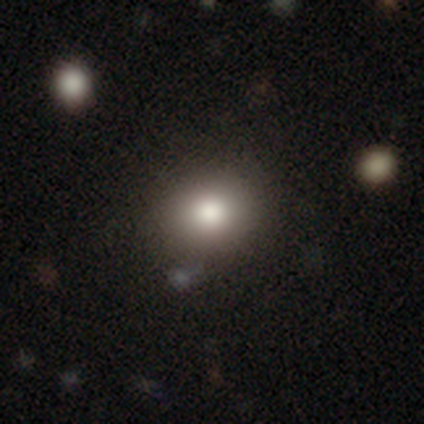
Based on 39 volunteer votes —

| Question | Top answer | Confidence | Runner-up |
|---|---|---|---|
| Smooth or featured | smooth | 82% | star or artifact (13%) |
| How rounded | round | 84% | in between (16%) |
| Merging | none | 62% | major disturbance (3%) |